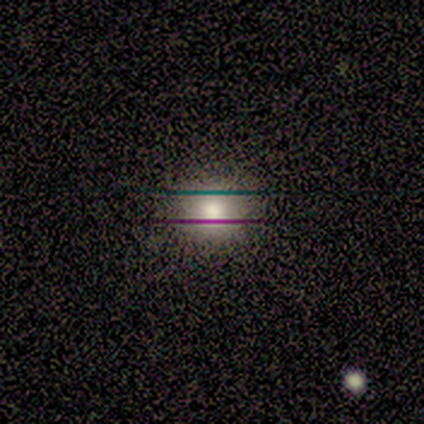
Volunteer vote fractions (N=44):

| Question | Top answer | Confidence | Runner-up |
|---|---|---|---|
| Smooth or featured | smooth | 73% | star or artifact (16%) |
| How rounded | round | 84% | in between (16%) |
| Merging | none | 97% | minor disturbance (3%) |